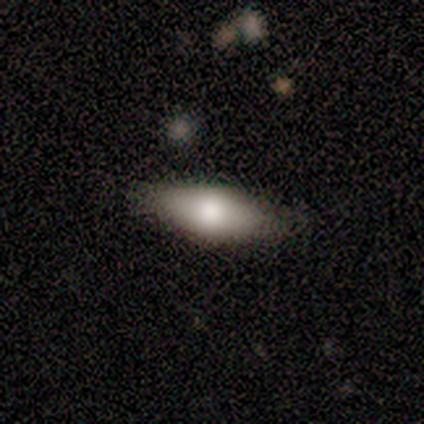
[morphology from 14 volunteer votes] Volunteers were most divided on "smooth or featured": smooth: 57%, featured or disk: 29%, star or artifact: 14%. More confident: how rounded — in between (75%); merging — none (75%).